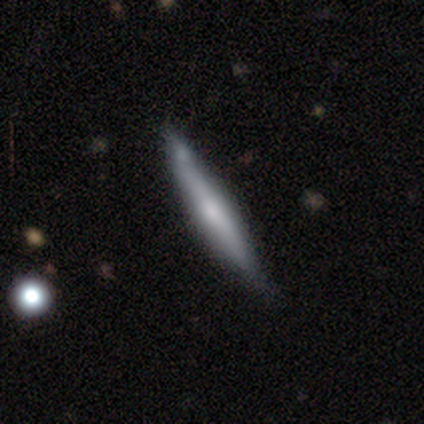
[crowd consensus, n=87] Volunteers were most divided on "smooth or featured": featured or disk: 51%, smooth: 47%, star or artifact: 2%. More confident: edge-on disk — yes (98%); merging — none (74%); edge-on bulge — rounded (56%).